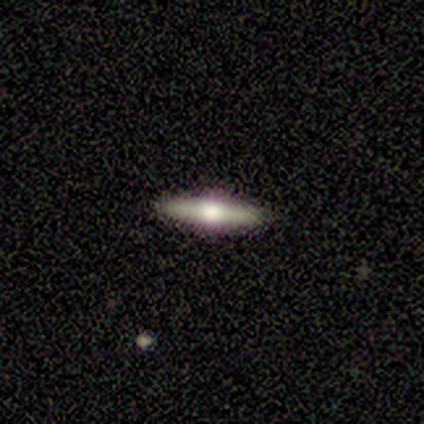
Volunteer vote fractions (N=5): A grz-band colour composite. It shows a featured or disk galaxy (80%) viewed edge-on (100%) with a rounded central bulge (100%). Merging: none (100%).